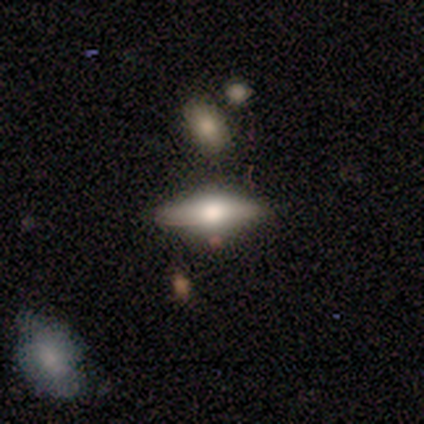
A featured or disk galaxy (60%) viewed edge-on (67%) with a rounded central bulge (100%).

Vote fractions:
- Smooth or featured? featured or disk: 60% / smooth: 40% / star or artifact: 0%
- Edge-on disk? yes: 67% / no: 33%
- Edge-on bulge? rounded: 100% / boxy: 0% / none: 0%
- Merging? none: 80% / minor disturbance: 20% / major disturbance: 0% / merger: 0%